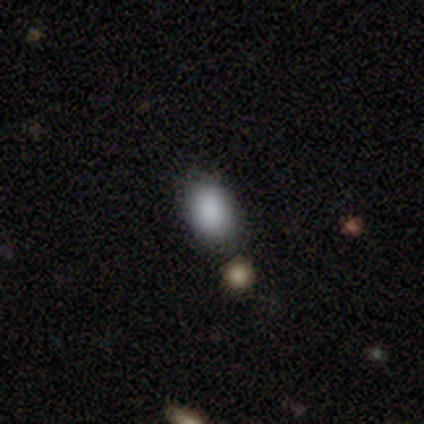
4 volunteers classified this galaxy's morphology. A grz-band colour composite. It shows a smooth galaxy with no disk features (50%, tied with star or artifact) that is round (50%, tied with in between). Merging: none (50%, tied with merger).